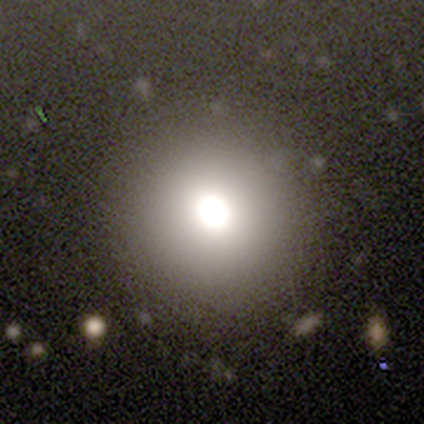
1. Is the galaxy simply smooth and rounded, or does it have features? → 100% smooth, 0% featured or disk, 0% star or artifact.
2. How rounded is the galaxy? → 100% round, 0% in between, 0% cigar-shaped.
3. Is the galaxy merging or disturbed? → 80% none, 20% minor disturbance, 0% major disturbance, 0% merger.